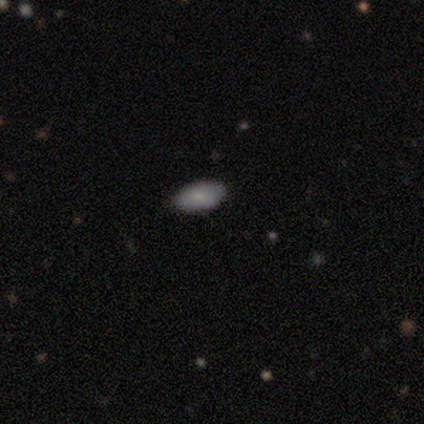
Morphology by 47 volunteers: Smooth or featured?
  - smooth: 87% *
  - featured or disk: 9%
  - star or artifact: 4%
How rounded?
  - in between: 95% *
  - round: 2%
  - cigar-shaped: 2%
Merging?
  - none: 91% *
  - minor disturbance: 9%
  - major disturbance: 0%
  - merger: 0%